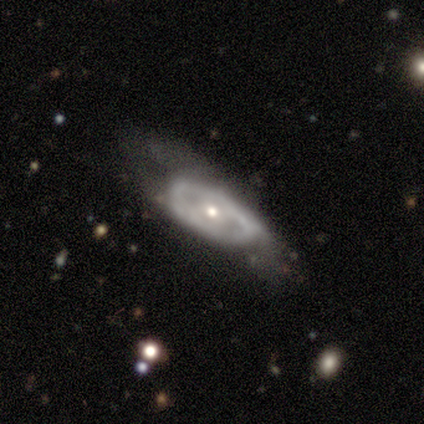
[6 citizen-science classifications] Morphology: type=featured or disk (67%); edge-on=no (100%); bar=weak (50%, tied with no); spiral arms=yes (50%, tied with no); winding=tight (50%, tied with medium); arm count=2 (50%, tied with can't tell); bulge=small (100%); merging=none (67%).